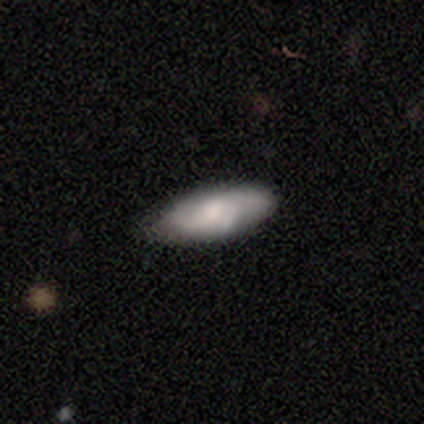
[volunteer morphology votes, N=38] A smooth galaxy with no disk features (61%) that is in between round and cigar-shaped (65%).

Vote fractions:
- Smooth or featured? smooth: 61% / featured or disk: 34% / star or artifact: 5%
- How rounded? in between: 65% / cigar-shaped: 35% / round: 0%
- Merging? none: 86% / minor disturbance: 11% / major disturbance: 3% / merger: 0%